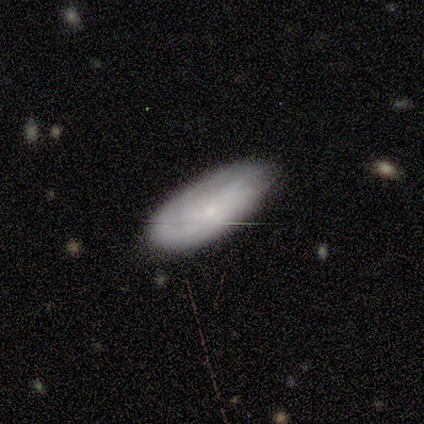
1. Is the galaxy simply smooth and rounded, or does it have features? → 80% smooth, 20% star or artifact, 0% featured or disk.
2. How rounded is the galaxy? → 75% in between, 25% cigar-shaped, 0% round.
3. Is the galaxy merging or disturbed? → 75% none, 25% minor disturbance, 0% major disturbance, 0% merger.